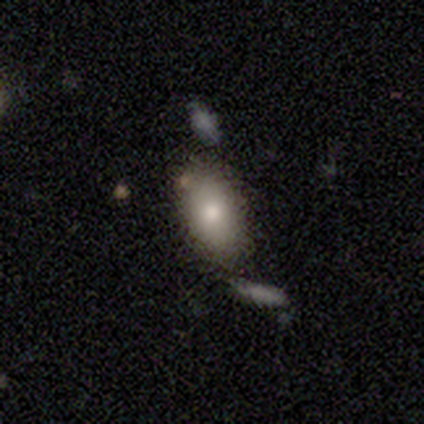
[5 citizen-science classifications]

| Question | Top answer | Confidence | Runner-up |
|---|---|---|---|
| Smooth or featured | smooth | 100% | — |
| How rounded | in between | 100% | — |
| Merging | none | 60% | minor disturbance (40%) |